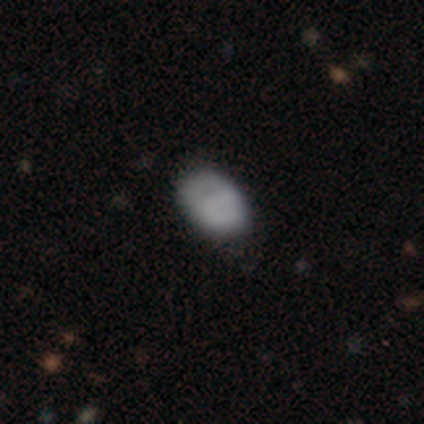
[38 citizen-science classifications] Volunteers were most divided on "merging": none: 63%, minor disturbance: 29%, major disturbance: 6%, merger: 3%. More confident: how rounded — in between (89%); smooth or featured — smooth (74%).